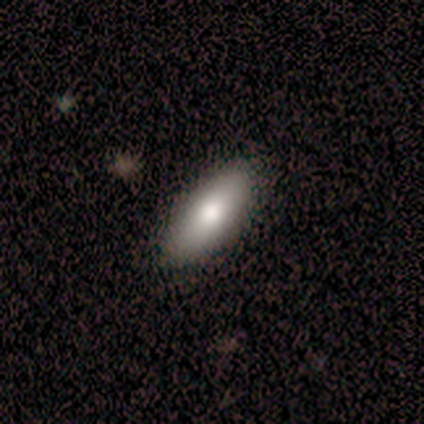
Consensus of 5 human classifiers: A smooth galaxy with no disk features (100%) that is in between round and cigar-shaped (100%). Merging: none (100%).